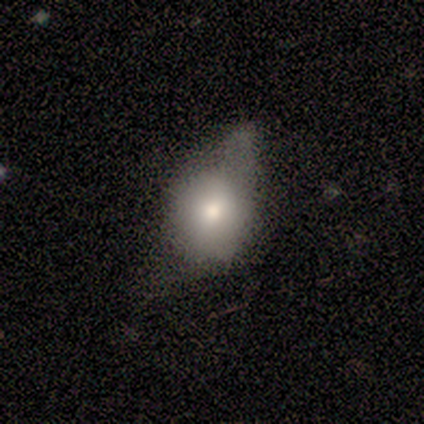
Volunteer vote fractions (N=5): Smooth or featured?
  - smooth: 60% *
  - featured or disk: 40%
  - star or artifact: 0%
How rounded?
  - round: 67% *
  - in between: 33%
  - cigar-shaped: 0%
Merging?
  - minor disturbance: 100% *
  - none: 0%
  - major disturbance: 0%
  - merger: 0%